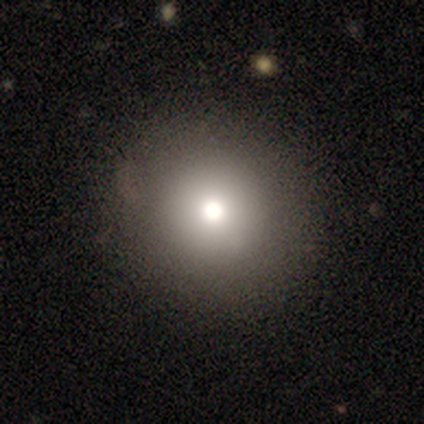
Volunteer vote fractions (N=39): A smooth galaxy with no disk features (85%) that is round (100%). Merging: none (61%).